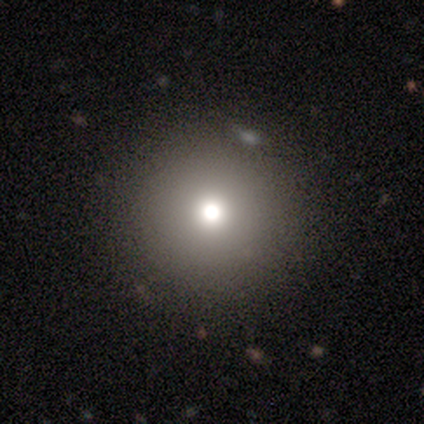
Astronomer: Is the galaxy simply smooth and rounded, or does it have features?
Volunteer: smooth — 80%.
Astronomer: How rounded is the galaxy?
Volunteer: round — 75%.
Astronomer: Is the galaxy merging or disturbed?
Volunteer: none — 100%.